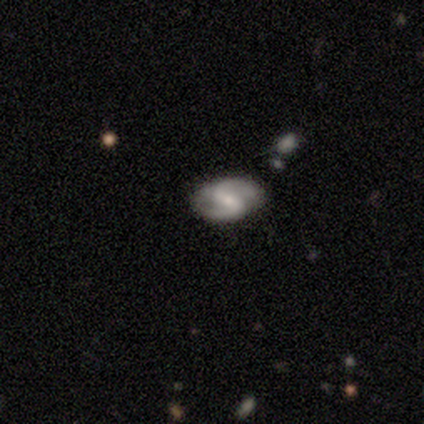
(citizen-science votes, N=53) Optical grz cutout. It shows a featured or disk galaxy (85%) with a weak bar (48%), 2 (98%) medium (51%) spiral arms (93%) and a small central bulge (45%). Merging: none (80%).